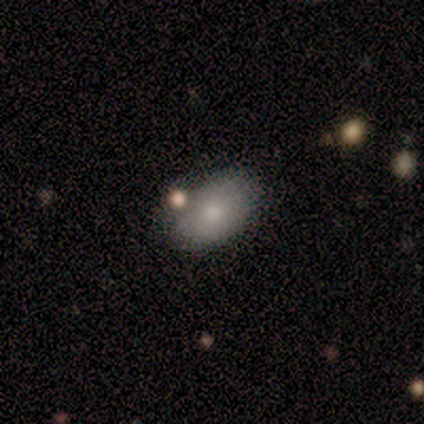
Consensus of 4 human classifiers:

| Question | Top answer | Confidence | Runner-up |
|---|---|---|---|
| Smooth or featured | smooth | 100% | — |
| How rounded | in between | 100% | — |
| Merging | none | 100% | — |